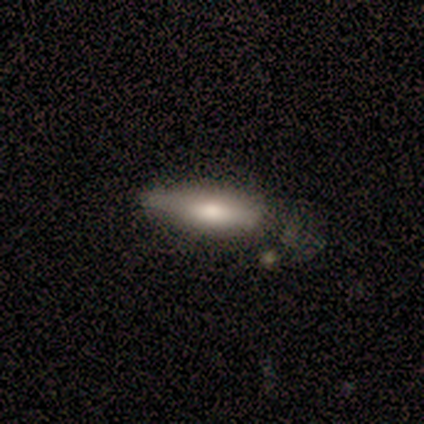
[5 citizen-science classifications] Smooth or featured? 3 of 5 (60%) said featured or disk. Edge-on disk? 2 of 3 (67%) said yes. Edge-on bulge? 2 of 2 (100%) said rounded. Merging? 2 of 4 (50%) said none.